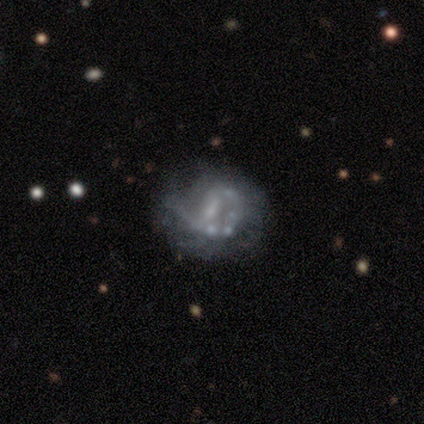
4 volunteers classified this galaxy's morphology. featured or disk 100%, smooth 0%, star or artifact 0%. Down the decision tree: edge-on disk — no (100%); bar — no (50%); spiral arms — yes (50%, tied with no); spiral arm count — 2 (50%, tied with can't tell); spiral winding — loose (100%); bulge size — none (50%); merging — major disturbance (75%).